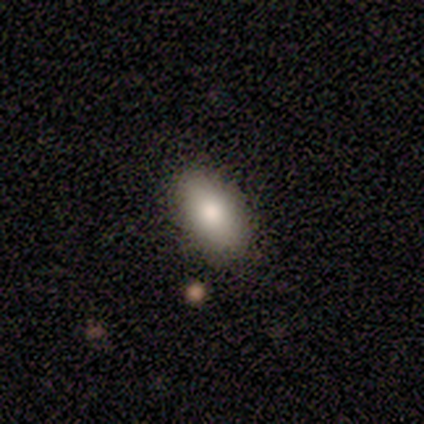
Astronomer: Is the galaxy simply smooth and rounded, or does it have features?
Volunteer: smooth — 100%.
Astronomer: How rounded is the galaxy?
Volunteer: in between — 100%.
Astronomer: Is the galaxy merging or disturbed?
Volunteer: none — 80%.